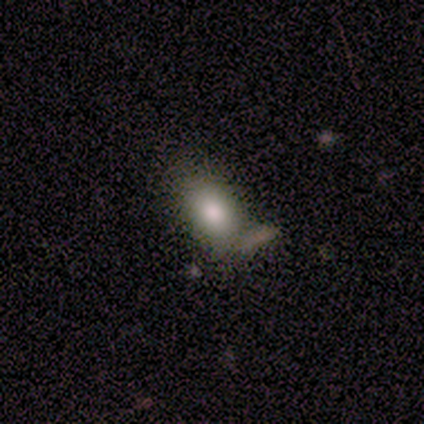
Smooth or featured? smooth (74%)
How rounded? in between (83%)
Merging? none (60%)